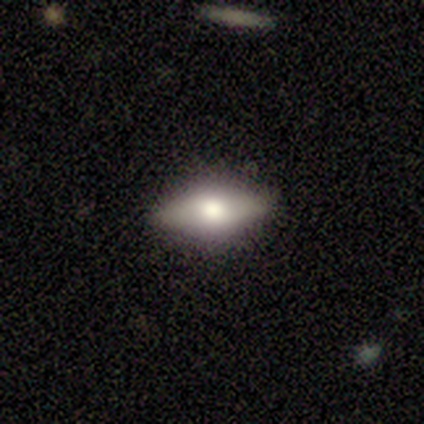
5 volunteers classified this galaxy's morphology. Volunteers were most divided on "smooth or featured" (2-way tie): smooth: 40%, featured or disk: 40%, star or artifact: 20%. More confident: how rounded — in between (100%); merging — none (100%).